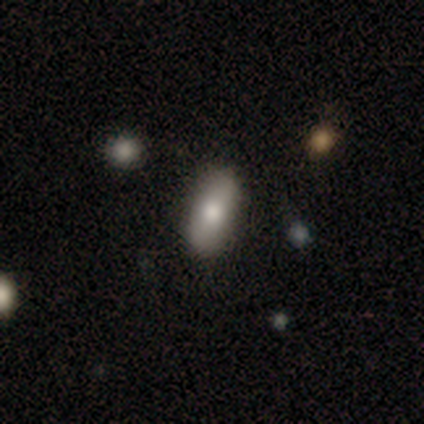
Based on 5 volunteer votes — Smooth or featured? smooth (60%)
How rounded? in between (67%)
Merging? none (60%)